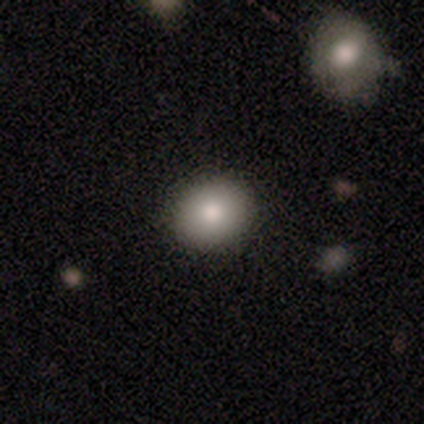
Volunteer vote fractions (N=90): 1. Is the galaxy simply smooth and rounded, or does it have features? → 83% smooth, 9% featured or disk, 8% star or artifact.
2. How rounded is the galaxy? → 73% round, 25% in between, 1% cigar-shaped.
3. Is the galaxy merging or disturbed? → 92% none, 8% minor disturbance, 0% major disturbance, 0% merger.